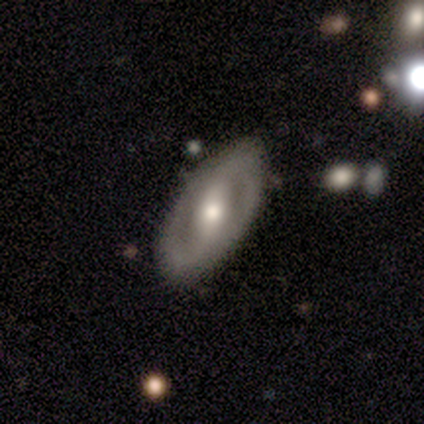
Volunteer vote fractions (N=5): Smooth or featured?
  - featured or disk: 100% *
  - smooth: 0%
  - star or artifact: 0%
Edge-on disk?
  - no: 100% *
  - yes: 0%
Bar?
  - strong: 60% *
  - weak: 40%
  - no: 0%
Spiral arms?
  - yes: 80% *
  - no: 20%
Spiral winding?
  - medium: 75% *
  - tight: 25%
  - loose: 0%
Spiral arm count?
  - 2: 100% *
  - 1: 0%
  - 3: 0%
  - 4: 0%
  - more than 4: 0%
  - can't tell: 0%
Bulge size?
  - moderate: 60% *
  - large: 40%
  - dominant: 0%
  - small: 0%
  - none: 0%
Merging?
  - none: 100% *
  - minor disturbance: 0%
  - major disturbance: 0%
  - merger: 0%